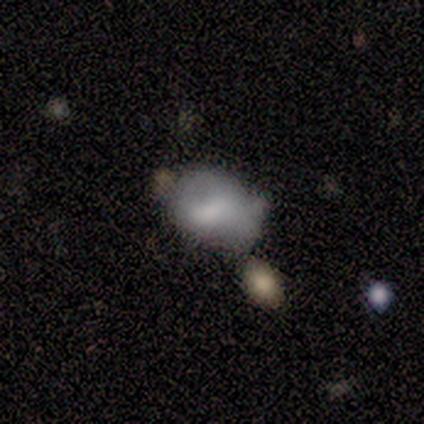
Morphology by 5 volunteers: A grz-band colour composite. It shows a featured or disk galaxy (60%) with no bar (67%), no spiral arms (100%) and a large central bulge (33%, tied with moderate and small). Merging: minor disturbance (100%).